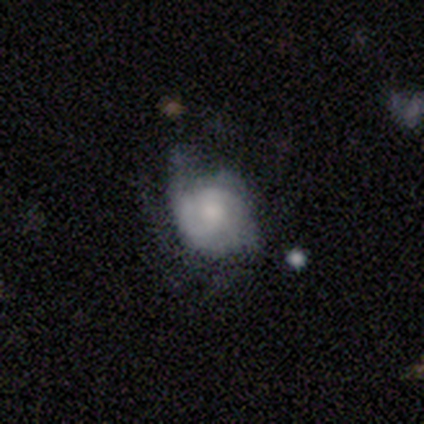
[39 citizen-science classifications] smooth-or-featured: featured or disk: 54% | smooth: 41% | star or artifact: 5%
  disk-edge-on: no: 100% | yes: 0%
    bar: no: 76% | weak: 24% | strong: 0%
    has-spiral-arms: yes: 81% | no: 19%
      spiral-winding: tight: 53% | medium: 29% | loose: 18%
      spiral-arm-count: can't tell: 47% | 2: 35% | 3: 12% | 1: 6% | 4: 0% | more than 4: 0%
    bulge-size: moderate: 33% (tied) | small: 33% (tied) | large: 29% | none: 5% | dominant: 0%
  merging: none: 43% | minor disturbance: 38% | major disturbance: 19% | merger: 0%